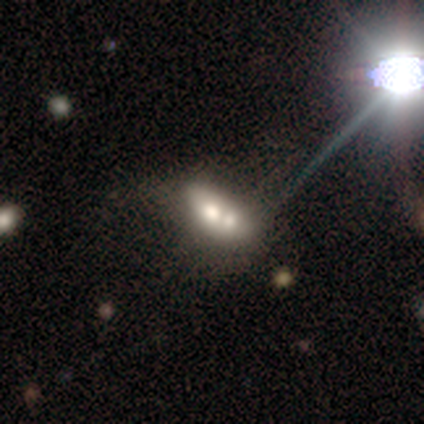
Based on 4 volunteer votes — Smooth or featured: featured or disk — 100%
Edge-on disk: no — 100%
Bar: no — 100%
Spiral arms: no — 100%
Bulge size: moderate — 50% (tied with small — 50%)
Merging: merger — 50% (none — 25%)